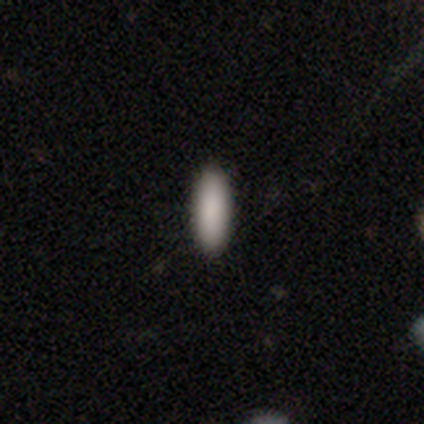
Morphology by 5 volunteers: smooth 100%, featured or disk 0%, star or artifact 0%. Down the decision tree: how rounded — in between (60%); merging — none (100%).